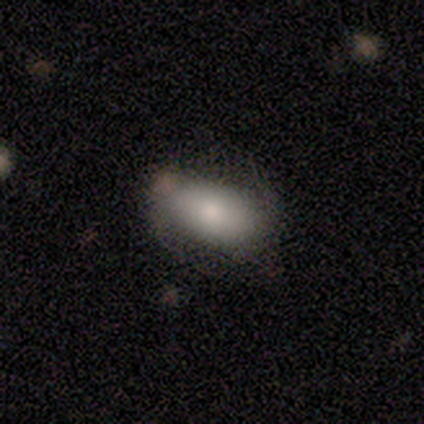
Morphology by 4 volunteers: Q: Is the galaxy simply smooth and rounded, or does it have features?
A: smooth — 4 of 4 (100%).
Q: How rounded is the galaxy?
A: in between — 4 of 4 (100%).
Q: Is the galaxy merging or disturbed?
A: none — 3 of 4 (75%).